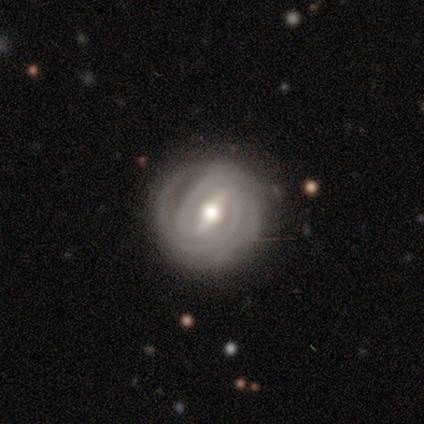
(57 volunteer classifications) Overall: featured or disk (89%). Edge-on disk: no (96%). Bar: strong (53%; weak 43%). Spiral arms: yes (98%). Spiral arm count: 2 (40%, tied with 3). Spiral winding: tight (92%). Bulge size: moderate (88%). Merging: none (76%).